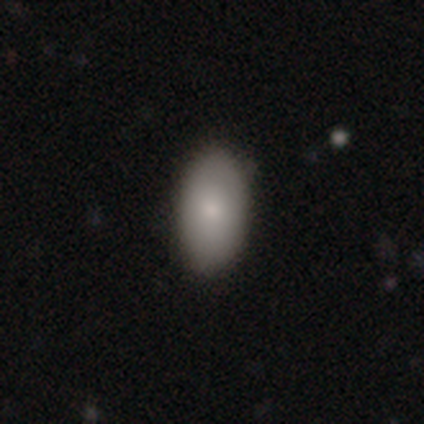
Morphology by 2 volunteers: A featured or disk galaxy (50%, tied with star or artifact) with no bar (100%), no spiral arms (100%) and a small central bulge (100%). Merging: none (100%).